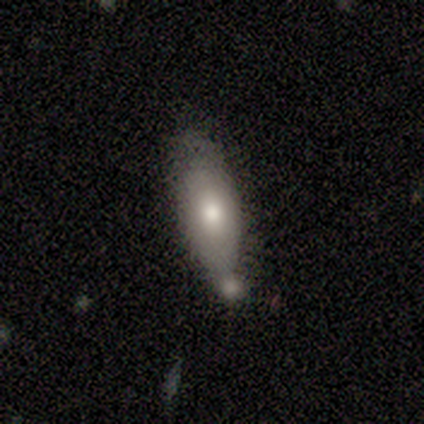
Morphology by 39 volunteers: smooth 77%, featured or disk 21%, star or artifact 3%. Down the decision tree: how rounded — in between (57%); merging — none (39%, tied with minor disturbance).